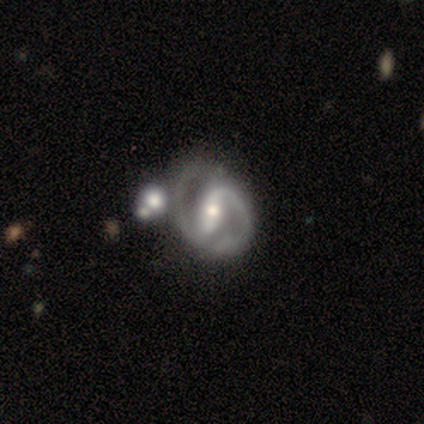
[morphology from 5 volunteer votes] Overall: featured or disk (80%). Edge-on disk: no (75%). Bar: strong (100%). Spiral arms: yes (100%). Spiral arm count: 2 (100%). Spiral winding: tight (33%, tied with medium and loose). Bulge size: moderate (67%; small 33%). Merging: none (75%).